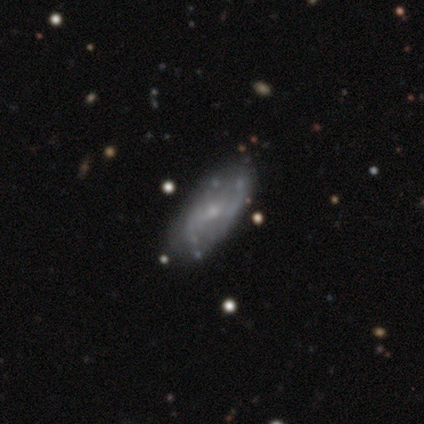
Smooth or featured? 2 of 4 (50%, tied with featured or disk) said smooth. How rounded? 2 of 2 (100%) said in between. Merging? 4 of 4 (100%) said none.